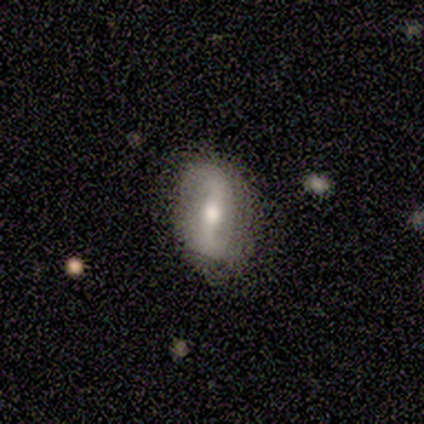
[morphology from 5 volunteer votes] A featured or disk galaxy (60%) with a weak bar (67%), 2 (100%) tight (50%, tied with loose) spiral arms (67%) and a moderate central bulge (100%). Merging: none (75%).